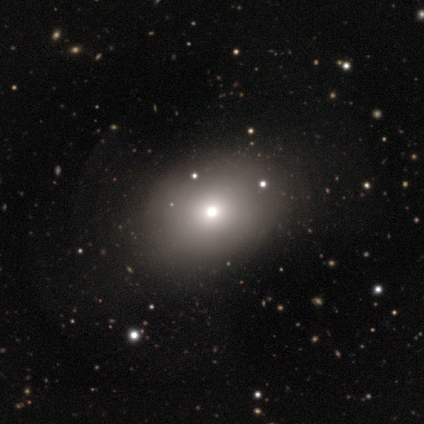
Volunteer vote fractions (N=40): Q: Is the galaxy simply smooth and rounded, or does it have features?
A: smooth — 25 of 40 (62%).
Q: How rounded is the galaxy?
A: round — 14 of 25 (56%).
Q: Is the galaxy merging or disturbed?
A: none — 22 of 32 (69%).